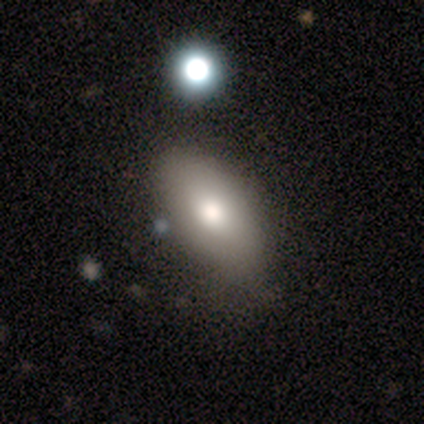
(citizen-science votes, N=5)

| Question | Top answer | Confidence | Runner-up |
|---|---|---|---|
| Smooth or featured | smooth | 100% | — |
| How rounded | in between | 100% | — |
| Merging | none | 60% | minor disturbance (40%) |